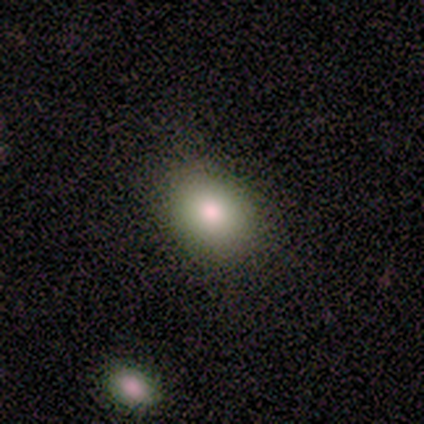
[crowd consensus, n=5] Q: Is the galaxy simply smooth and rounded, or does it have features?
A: smooth — 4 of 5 (80%).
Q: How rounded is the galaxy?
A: round — 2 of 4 (50%, tied with in between).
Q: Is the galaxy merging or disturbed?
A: none — 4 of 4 (100%).